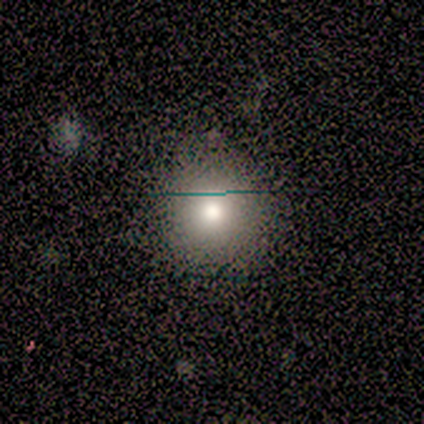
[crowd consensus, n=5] Morphology: type=smooth (40%, tied with star or artifact); roundness=round (100%); merging=none (100%).